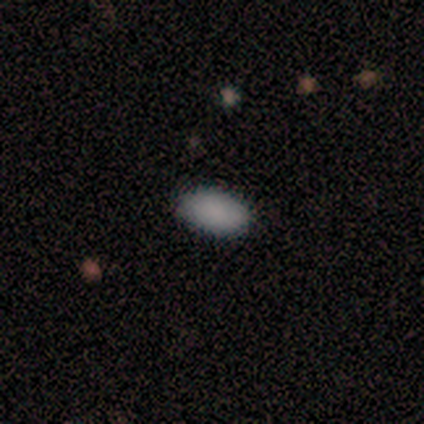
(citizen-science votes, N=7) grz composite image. It shows a smooth galaxy with no disk features (100%) that is in between round and cigar-shaped (100%). Merging: none (100%).